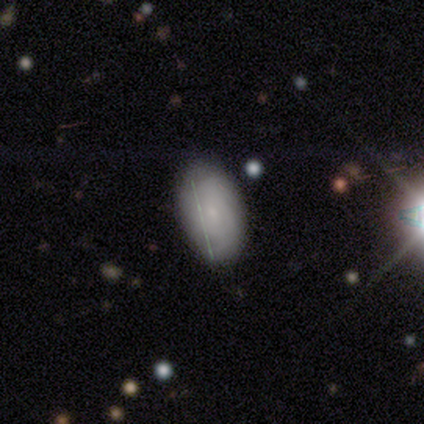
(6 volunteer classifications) This is likely a smooth galaxy (67%). How rounded: clearly in between (100%). Merging: clearly none (80%).